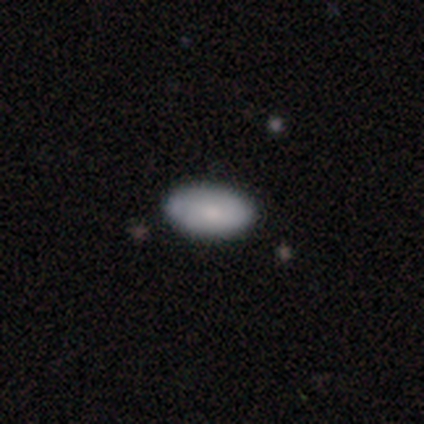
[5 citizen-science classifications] smooth 100%, featured or disk 0%, star or artifact 0%. Down the decision tree: how rounded — in between (100%); merging — none (100%).